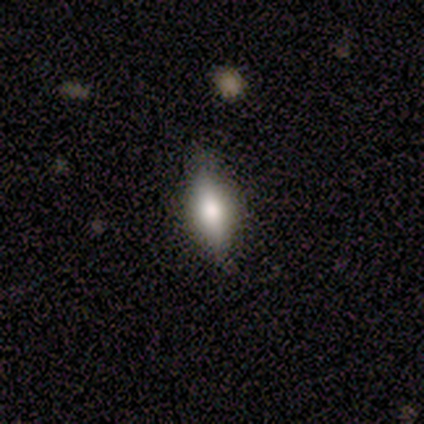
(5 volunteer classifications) This is likely a smooth galaxy (60%). How rounded: clearly in between (100%). Merging: clearly none (80%).